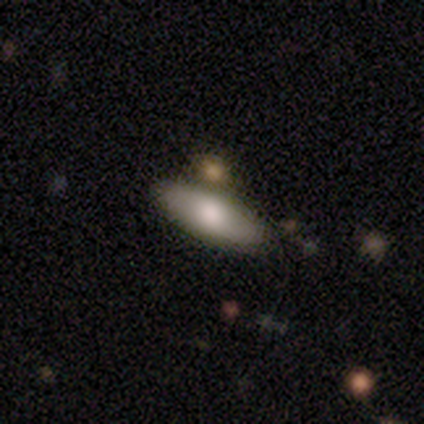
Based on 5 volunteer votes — Volunteers were most divided on "merging": none: 60%, minor disturbance: 40%, major disturbance: 0%, merger: 0%. More confident: smooth or featured — smooth (80%); how rounded — in between (75%).